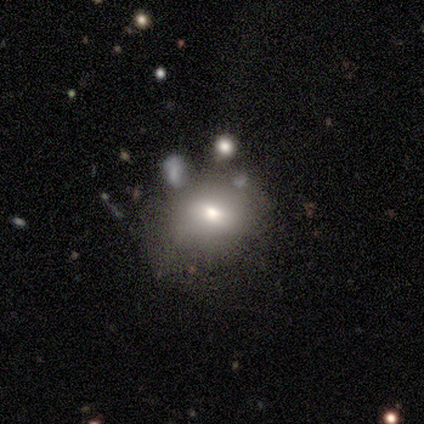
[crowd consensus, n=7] Volunteers were most divided on "merging" (2-way tie): none: 43%, minor disturbance: 43%, merger: 14%, major disturbance: 0%. More confident: bar — no (100%); spiral arms — no (100%); bulge size — moderate (100%); edge-on disk — no (75%); smooth or featured — featured or disk (57%).